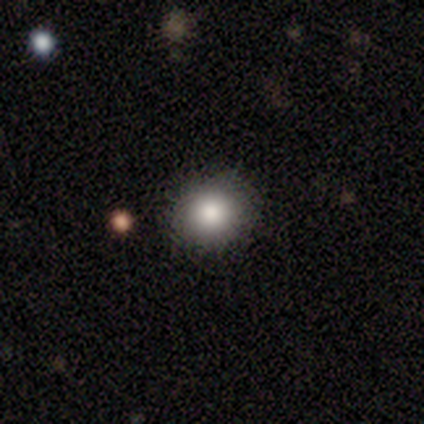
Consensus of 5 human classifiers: Smooth or featured?
  - smooth: 60% *
  - featured or disk: 20%
  - star or artifact: 20%
How rounded?
  - round: 100% *
  - in between: 0%
  - cigar-shaped: 0%
Merging?
  - none: 100% *
  - minor disturbance: 0%
  - major disturbance: 0%
  - merger: 0%